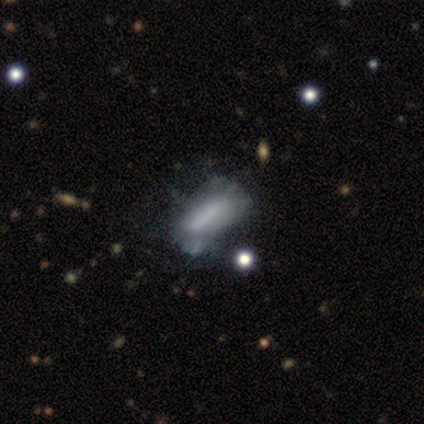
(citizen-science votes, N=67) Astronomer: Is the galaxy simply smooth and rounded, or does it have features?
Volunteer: smooth — 48% (runner-up: featured or disk, 46%).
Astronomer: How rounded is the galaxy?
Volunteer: in between — 81%.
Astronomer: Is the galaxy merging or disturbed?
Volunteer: none — 38% (runner-up: major disturbance, 25%).